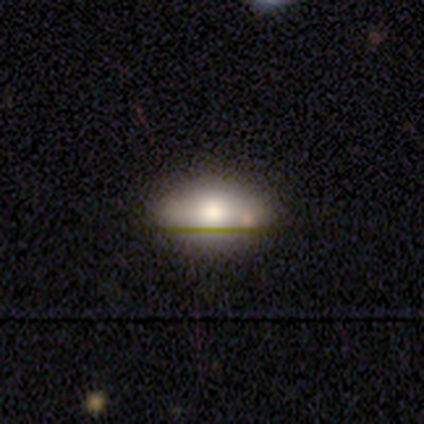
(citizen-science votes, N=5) smooth_or_featured: smooth (p=0.60) [alt: star or artifact p=0.40]
how_rounded: in between (p=1.00)
merging: minor disturbance (p=0.67) [alt: none p=0.33]